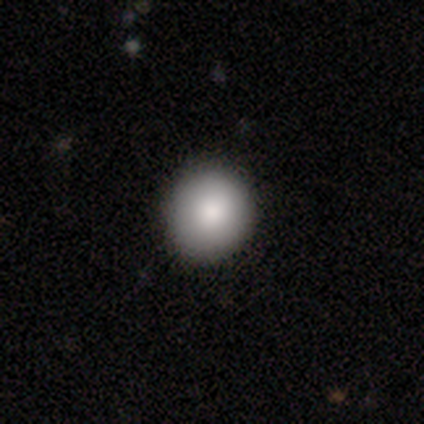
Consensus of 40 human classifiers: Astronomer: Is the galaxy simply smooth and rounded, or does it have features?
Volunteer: smooth — 95%.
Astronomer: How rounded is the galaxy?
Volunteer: round — 89%.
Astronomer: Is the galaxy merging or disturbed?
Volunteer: none — 90%.